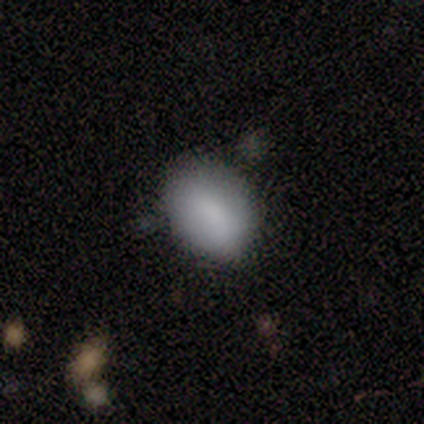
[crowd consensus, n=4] Volunteers were most divided on "merging" (2-way tie): none: 50%, minor disturbance: 50%, major disturbance: 0%, merger: 0%. More confident: smooth or featured — smooth (75%); how rounded — in between (67%).